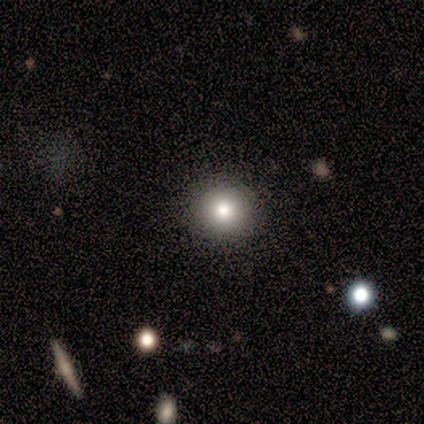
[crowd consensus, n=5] smooth_or_featured: smooth (p=0.80) [alt: featured or disk p=0.20]
how_rounded: round (p=1.00)
merging: none (p=1.00)